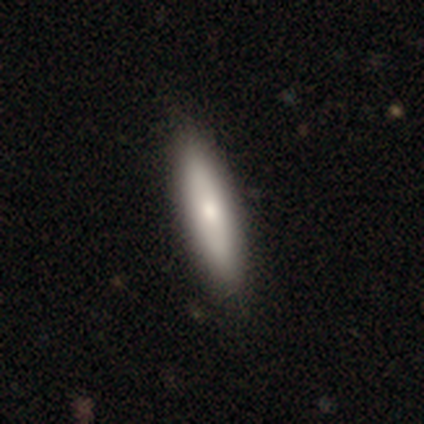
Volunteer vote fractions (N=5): Smooth or featured? 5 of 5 (100%) said smooth. How rounded? 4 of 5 (80%) said cigar-shaped. Merging? 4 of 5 (80%) said none.